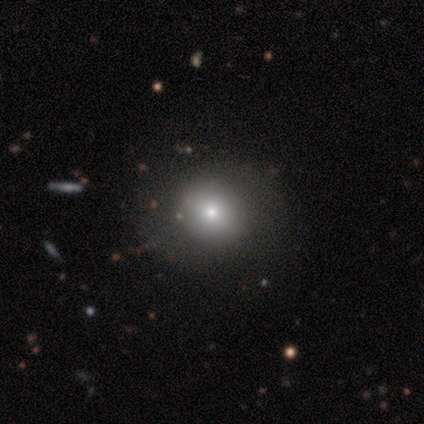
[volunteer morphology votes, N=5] This is likely a smooth galaxy (60%). How rounded: likely round (67%). Merging: clearly none (80%).